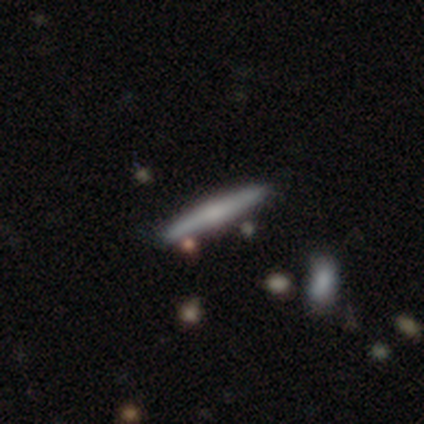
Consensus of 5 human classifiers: This is marginally a smooth galaxy (40%, tied with featured or disk). How rounded: clearly cigar-shaped (100%). Merging: clearly none (100%).